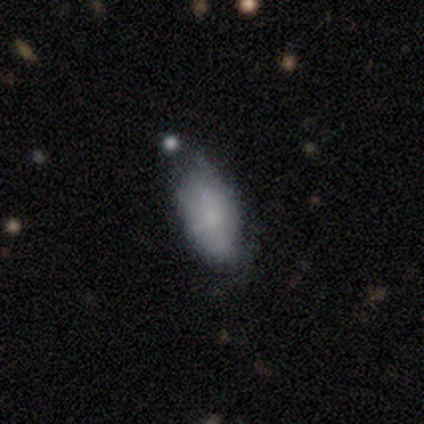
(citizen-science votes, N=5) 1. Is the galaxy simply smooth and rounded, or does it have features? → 80% smooth, 20% featured or disk, 0% star or artifact.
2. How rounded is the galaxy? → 100% in between, 0% round, 0% cigar-shaped.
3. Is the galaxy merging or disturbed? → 60% none, 20% minor disturbance, 20% merger, 0% major disturbance.